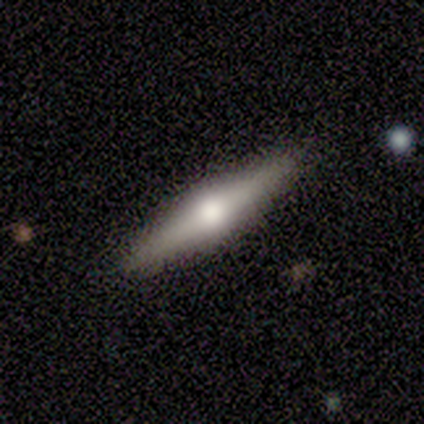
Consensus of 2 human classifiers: smooth-or-featured: featured or disk: 100% | smooth: 0% | star or artifact: 0%
  disk-edge-on: yes: 100% | no: 0%
    edge-on-bulge: rounded: 100% | boxy: 0% | none: 0%
  merging: none: 100% | minor disturbance: 0% | major disturbance: 0% | merger: 0%